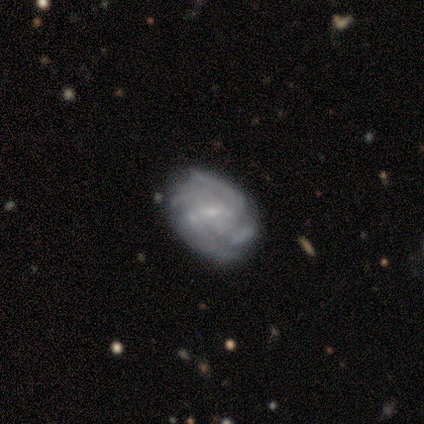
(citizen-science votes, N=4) Overall: featured or disk (100%). Edge-on disk: no (100%). Bar: strong (50%; weak 25%). Spiral arms: yes (100%). Spiral arm count: 2 (25%, tied with 3, 4 and can't tell). Spiral winding: medium (75%). Bulge size: small (75%). Merging: none (75%).